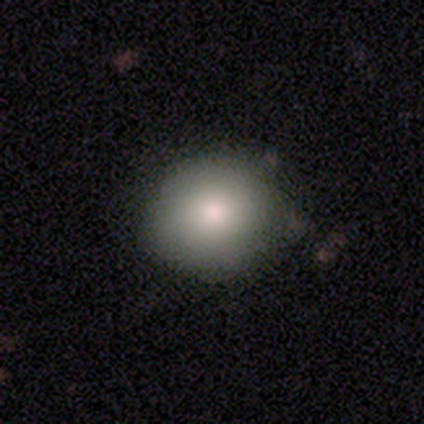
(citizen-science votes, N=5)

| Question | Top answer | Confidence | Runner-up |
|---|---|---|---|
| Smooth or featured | smooth | 100% | — |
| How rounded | round | 100% | — |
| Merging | none | 100% | — |